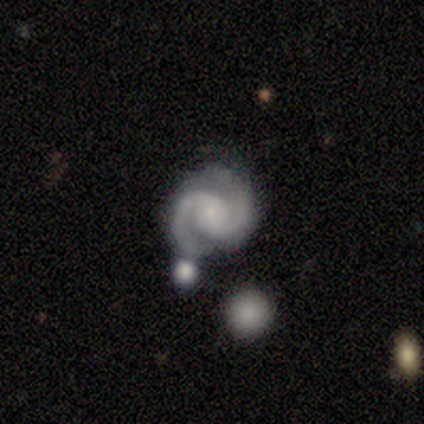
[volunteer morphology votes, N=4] This appears to be a featured or disk galaxy (100%) with a weak bar (50%), 2 (100%) tight (50%, tied with medium) spiral arms (100%) and a small central bulge (100%). Merging: none (50%, tied with major disturbance).